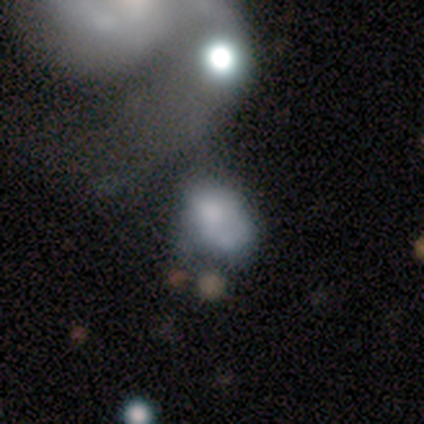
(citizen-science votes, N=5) Overall: smooth (40%, tied with featured or disk). How rounded: round (50%, tied with in between). Merging: merger (50%; none 25%).